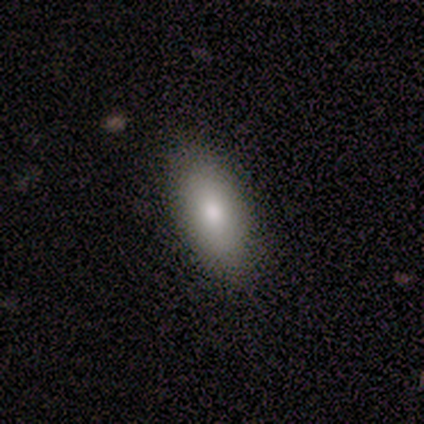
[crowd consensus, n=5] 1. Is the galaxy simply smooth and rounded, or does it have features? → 40% smooth (tied), 40% featured or disk (tied), 20% star or artifact.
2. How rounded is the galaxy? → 100% in between, 0% round, 0% cigar-shaped.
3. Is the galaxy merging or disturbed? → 75% none, 25% minor disturbance, 0% major disturbance, 0% merger.